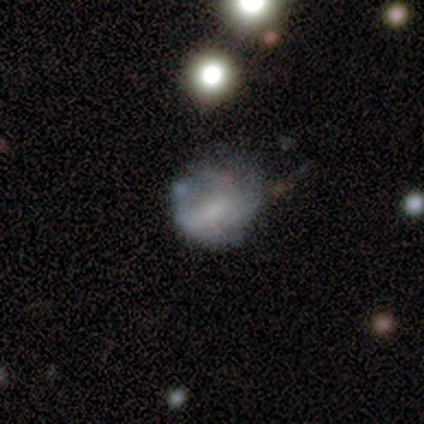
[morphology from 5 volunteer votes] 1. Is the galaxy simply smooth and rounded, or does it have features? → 40% smooth (tied), 40% featured or disk (tied), 20% star or artifact.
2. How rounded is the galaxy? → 50% round (tied), 50% in between (tied), 0% cigar-shaped.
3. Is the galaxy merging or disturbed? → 50% major disturbance, 25% none, 25% minor disturbance, 0% merger.